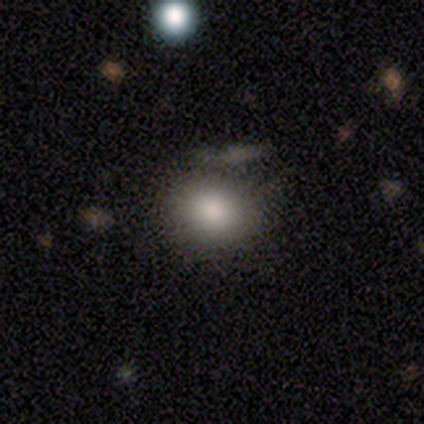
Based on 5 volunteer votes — Smooth or featured: smooth — 100%
How rounded: in between — 80% (round — 20%)
Merging: major disturbance — 40% (none — 20%)